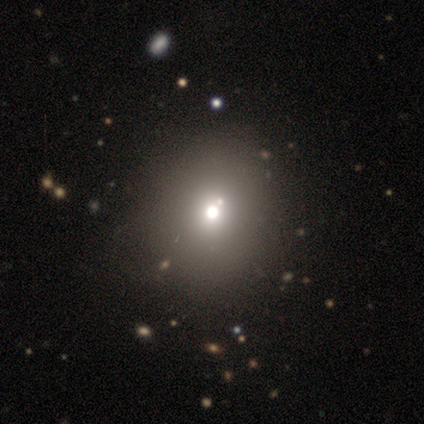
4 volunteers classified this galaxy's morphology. smooth-or-featured: smooth: 100% | featured or disk: 0% | star or artifact: 0%
  how-rounded: round: 75% | in between: 25% | cigar-shaped: 0%
  merging: none: 75% | minor disturbance: 25% | major disturbance: 0% | merger: 0%